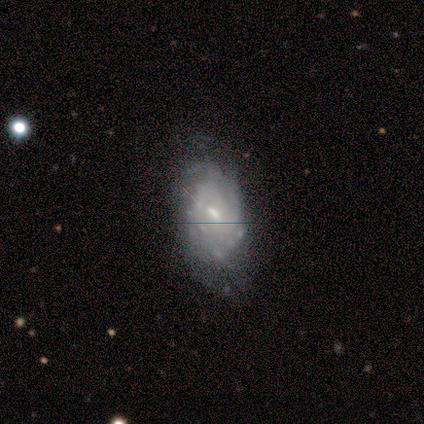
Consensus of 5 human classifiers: Volunteers were most divided on "smooth or featured": featured or disk: 60%, star or artifact: 40%, smooth: 0%. More confident: edge-on disk — no (100%); merging — minor disturbance (100%); bar — weak (67%); spiral arms — no (67%); bulge size — small (67%).